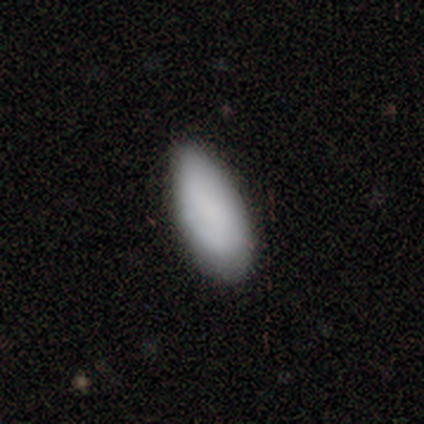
This is clearly a smooth galaxy (100%). How rounded: likely in between (75%). Merging: likely none (75%).